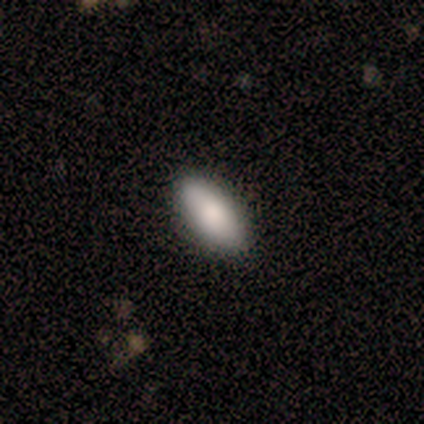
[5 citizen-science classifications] Smooth or featured? 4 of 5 (80%) said smooth. How rounded? 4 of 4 (100%) said in between. Merging? 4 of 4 (100%) said none.